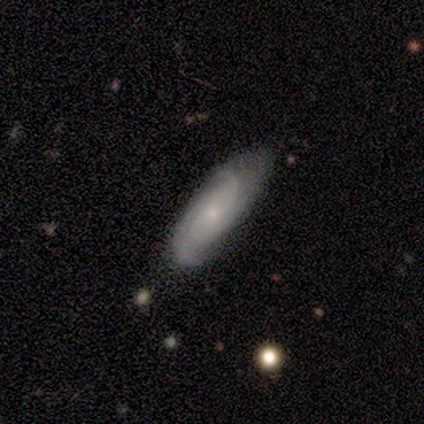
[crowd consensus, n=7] featured or disk 71%, smooth 14%, star or artifact 14%. Down the decision tree: edge-on disk — no (100%); bar — no (60%); spiral arms — yes (100%); spiral arm count — 3 (60%); spiral winding — medium (40%, tied with loose); bulge size — small (60%); merging — minor disturbance (50%).